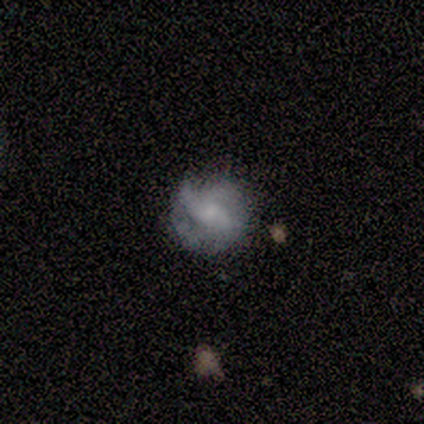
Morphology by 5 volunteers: featured or disk 80%, smooth 20%, star or artifact 0%. Down the decision tree: edge-on disk — no (100%); bar — no (75%); spiral arms — yes (100%); spiral arm count — can't tell (75%); spiral winding — medium (50%); bulge size — small (75%); merging — none (60%).